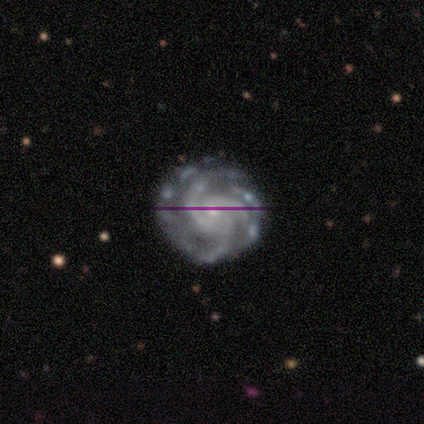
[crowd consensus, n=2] featured or disk 100%, smooth 0%, star or artifact 0%. Down the decision tree: edge-on disk — no (100%); bar — no (100%); spiral arms — yes (100%); spiral arm count — 3 (50%, tied with 4); spiral winding — tight (100%); bulge size — small (100%); merging — none (50%, tied with minor disturbance).